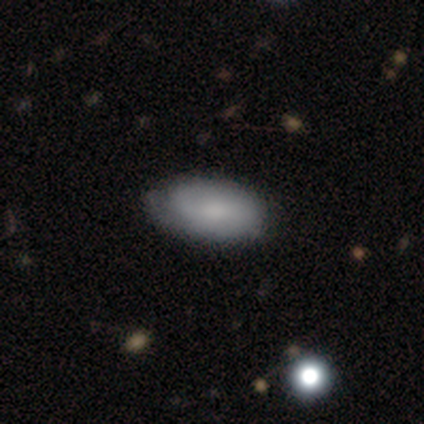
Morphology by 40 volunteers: Overall: smooth (68%; featured or disk 30%). How rounded: in between (100%). Merging: none (36%; minor disturbance 31%).